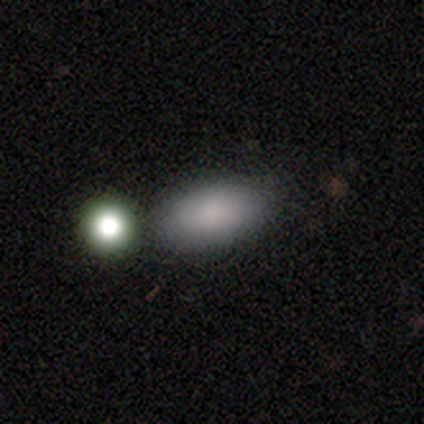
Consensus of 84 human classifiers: Volunteers were most divided on "merging": none: 67%, merger: 14%, minor disturbance: 12%, major disturbance: 7%. More confident: how rounded — in between (94%); smooth or featured — smooth (85%).